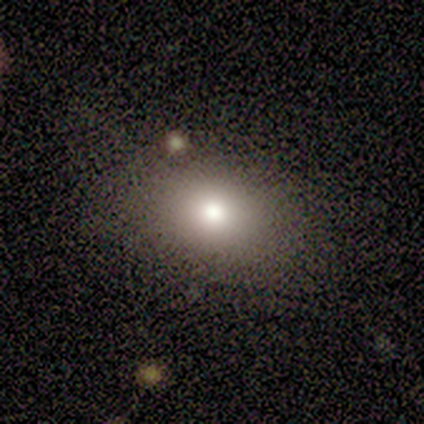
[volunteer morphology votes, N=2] Smooth or featured? 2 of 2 (100%) said smooth. How rounded? 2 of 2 (100%) said round. Merging? 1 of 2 (50%, tied with major disturbance) said none.